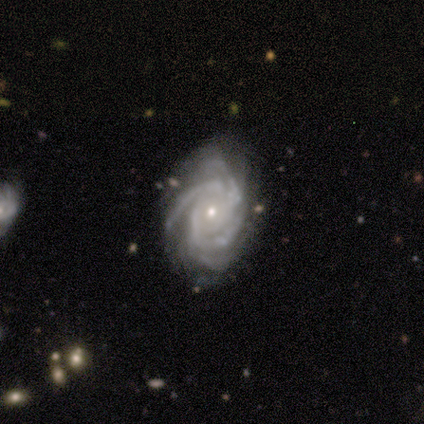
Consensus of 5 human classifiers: Smooth or featured? featured or disk (100%)
Edge-on disk? no (100%)
Bar? no (60%)
Spiral arms? yes (100%)
Spiral winding? tight (60%)
Spiral arm count? 4 (60%)
Bulge size? small (80%)
Merging? minor disturbance (80%)